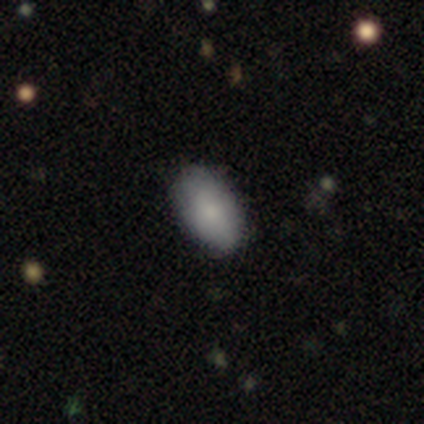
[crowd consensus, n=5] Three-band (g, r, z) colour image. It shows a smooth galaxy with no disk features (80%) that is in between round and cigar-shaped (100%). Merging: none (80%).